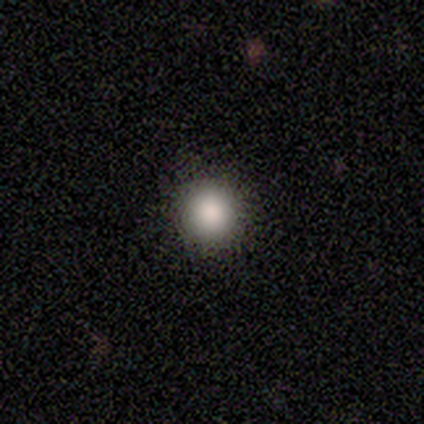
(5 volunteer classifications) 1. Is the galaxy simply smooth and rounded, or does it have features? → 100% smooth, 0% featured or disk, 0% star or artifact.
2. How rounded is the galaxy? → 100% round, 0% in between, 0% cigar-shaped.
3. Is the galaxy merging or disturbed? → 100% none, 0% minor disturbance, 0% major disturbance, 0% merger.